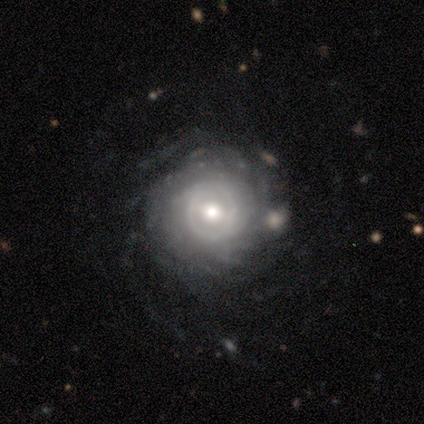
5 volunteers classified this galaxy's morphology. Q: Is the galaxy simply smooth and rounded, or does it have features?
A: featured or disk — 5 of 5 (100%).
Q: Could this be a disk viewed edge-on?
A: no — 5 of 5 (100%).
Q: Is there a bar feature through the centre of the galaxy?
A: strong — 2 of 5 (40%, tied with weak).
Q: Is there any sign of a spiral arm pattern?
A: yes — 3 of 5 (60%).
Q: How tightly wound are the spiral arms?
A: tight — 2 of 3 (67%).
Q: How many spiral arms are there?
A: can't tell — 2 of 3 (67%).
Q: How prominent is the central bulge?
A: moderate — 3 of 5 (60%).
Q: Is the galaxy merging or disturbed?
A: none — 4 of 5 (80%).